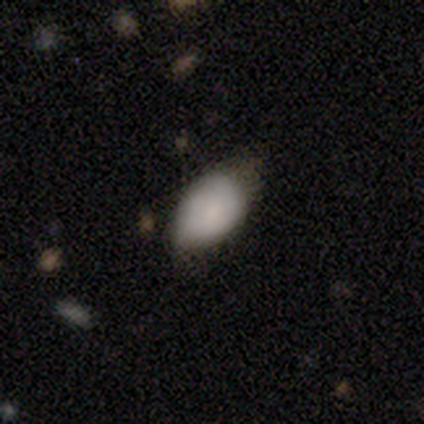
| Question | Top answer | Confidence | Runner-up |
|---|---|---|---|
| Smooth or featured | smooth | 90% | star or artifact (8%) |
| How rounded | in between | 83% | round (14%) |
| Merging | minor disturbance | 62% | none (32%) |